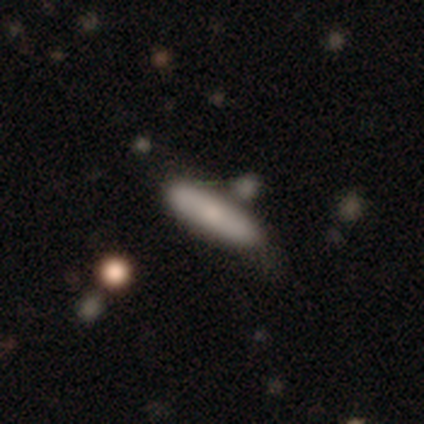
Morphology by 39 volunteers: A smooth galaxy with no disk features (74%) that is cigar-shaped (79%). Merging: none (64%).